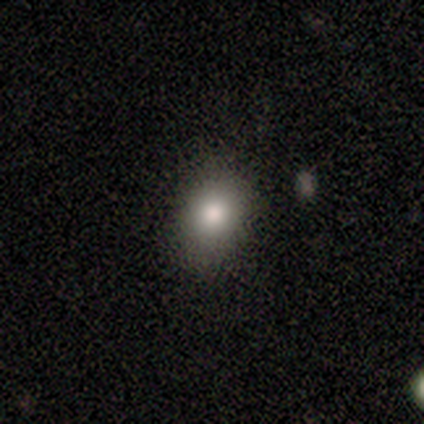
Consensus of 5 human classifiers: A smooth galaxy with no disk features (100%) that is round (60%).

Vote fractions:
- Smooth or featured? smooth: 100% / featured or disk: 0% / star or artifact: 0%
- How rounded? round: 60% / in between: 40% / cigar-shaped: 0%
- Merging? none: 100% / minor disturbance: 0% / major disturbance: 0% / merger: 0%